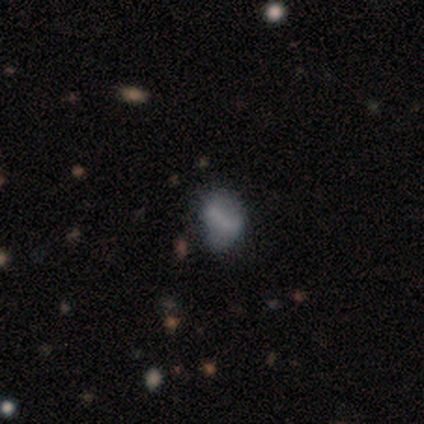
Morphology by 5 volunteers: Volunteers were most divided on "merging" (2-way tie): none: 40%, minor disturbance: 40%, major disturbance: 20%, merger: 0%. More confident: how rounded — in between (100%); smooth or featured — smooth (80%).